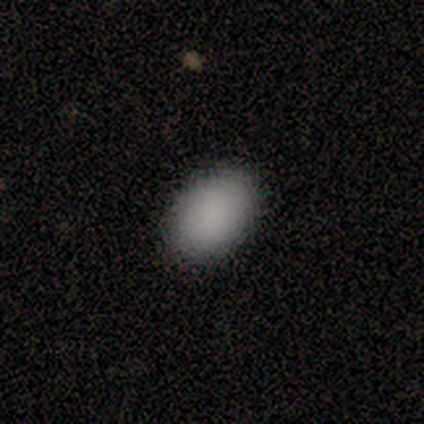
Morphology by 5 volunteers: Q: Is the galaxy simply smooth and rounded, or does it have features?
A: smooth — 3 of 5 (60%).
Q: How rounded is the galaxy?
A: in between — 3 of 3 (100%).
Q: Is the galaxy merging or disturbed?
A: none — 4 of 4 (100%).